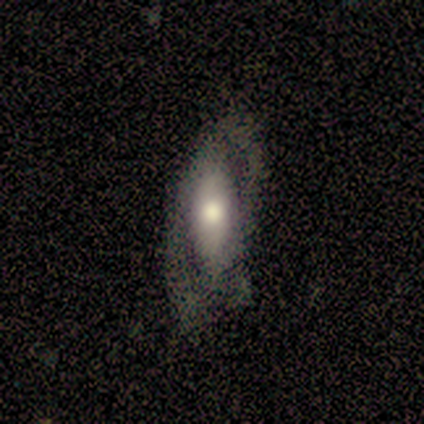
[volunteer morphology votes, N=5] smooth-or-featured: smooth: 80% | featured or disk: 20% | star or artifact: 0%
  how-rounded: in between: 75% | cigar-shaped: 25% | round: 0%
  merging: none: 80% | major disturbance: 20% | minor disturbance: 0% | merger: 0%